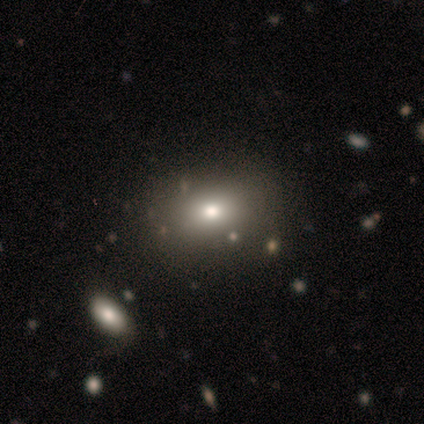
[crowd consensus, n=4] This is likely a smooth galaxy (75%). How rounded: clearly in between (100%). Merging: clearly none (100%).